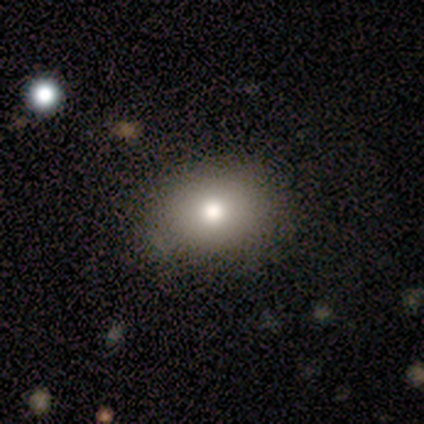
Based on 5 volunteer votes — smooth_or_featured: smooth (p=0.60) [alt: featured or disk p=0.20]
how_rounded: in between (p=0.67) [alt: round p=0.33]
merging: none (p=0.50) [tied with: minor disturbance p=0.50]